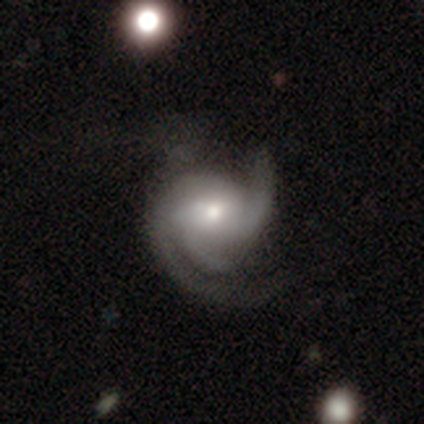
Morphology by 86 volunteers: A featured or disk galaxy (91%) with no bar (55%), 3 (60%) medium (51%) spiral arms (100%) and a moderate central bulge (51%).

Vote fractions:
- Smooth or featured? featured or disk: 91% / smooth: 8% / star or artifact: 1%
- Edge-on disk? no: 96% / yes: 4%
- Bar? no: 55% / weak: 39% / strong: 7%
- Spiral arms? yes: 100% / no: 0%
- Spiral winding? medium: 51% / tight: 37% / loose: 12%
- Spiral arm count? 3: 60% / 2: 29% / can't tell: 8% / 1: 1% / 4: 1% / more than 4: 0%
- Bulge size? moderate: 51% / small: 40% / large: 7% / dominant: 3% / none: 0%
- Merging? none: 44% / major disturbance: 32% / minor disturbance: 22% / merger: 2%